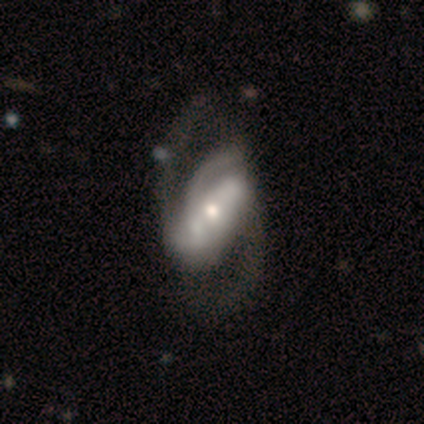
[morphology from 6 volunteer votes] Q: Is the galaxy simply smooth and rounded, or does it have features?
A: featured or disk — 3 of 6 (50%).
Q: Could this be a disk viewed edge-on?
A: no — 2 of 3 (67%).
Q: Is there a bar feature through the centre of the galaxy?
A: strong — 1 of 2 (50%, tied with weak).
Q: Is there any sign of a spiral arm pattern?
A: yes — 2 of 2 (100%).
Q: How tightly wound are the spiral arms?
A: medium — 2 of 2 (100%).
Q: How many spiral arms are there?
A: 2 — 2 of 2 (100%).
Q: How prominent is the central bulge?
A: moderate — 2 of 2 (100%).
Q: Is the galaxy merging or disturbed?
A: none — 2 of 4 (50%).